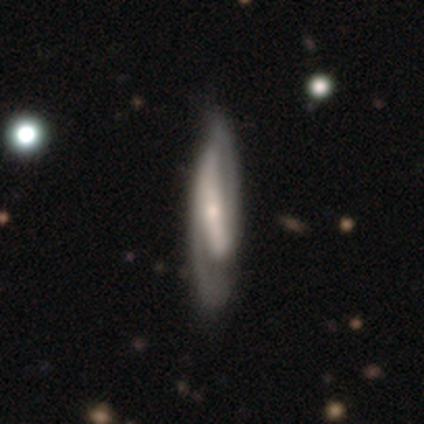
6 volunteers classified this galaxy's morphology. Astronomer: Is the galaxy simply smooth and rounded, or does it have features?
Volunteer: smooth — 50%, tied with featured or disk at 50%.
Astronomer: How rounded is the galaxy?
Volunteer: in between — 67%.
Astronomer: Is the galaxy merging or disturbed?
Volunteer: none — 67%.